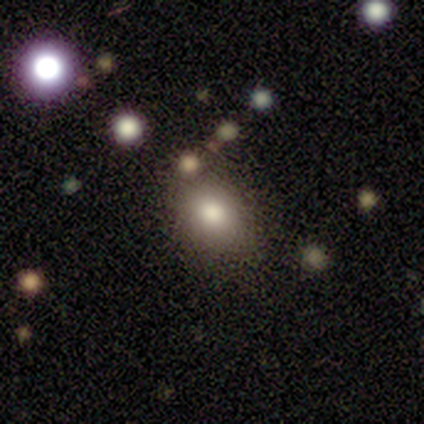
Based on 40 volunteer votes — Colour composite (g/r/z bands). It shows a smooth galaxy with no disk features (75%) that is in between round and cigar-shaped (57%). Merging: none (62%).